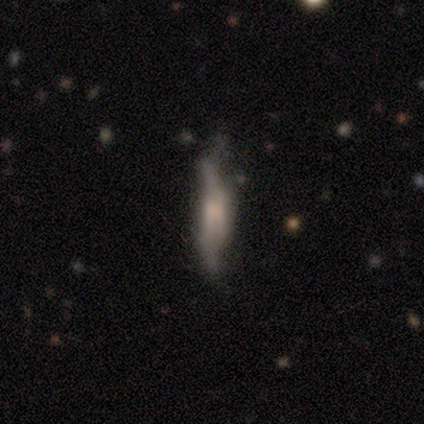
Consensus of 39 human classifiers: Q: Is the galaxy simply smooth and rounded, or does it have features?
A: featured or disk — 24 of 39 (62%).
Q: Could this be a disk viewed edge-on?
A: yes — 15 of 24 (62%).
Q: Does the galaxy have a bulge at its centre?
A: boxy — 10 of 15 (67%).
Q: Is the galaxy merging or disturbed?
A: none — 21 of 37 (57%).